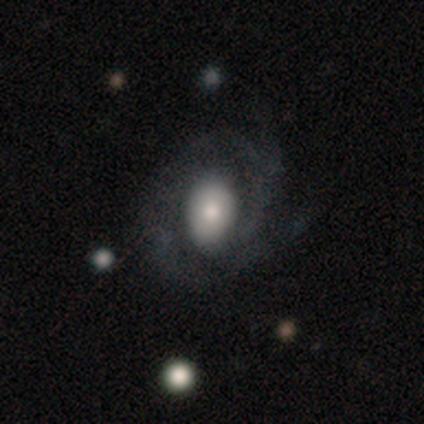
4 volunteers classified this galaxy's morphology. Smooth or featured: featured or disk — 75% (smooth — 25%)
Edge-on disk: no — 100%
Bar: no — 67% (weak — 33%)
Spiral arms: yes — 100%
Spiral winding: tight — 67% (loose — 33%)
Spiral arm count: 2 — 67% (can't tell — 33%)
Bulge size: moderate — 67% (large — 33%)
Merging: none — 25% (tied with minor disturbance — 25%; major disturbance — 25%; merger — 25%)